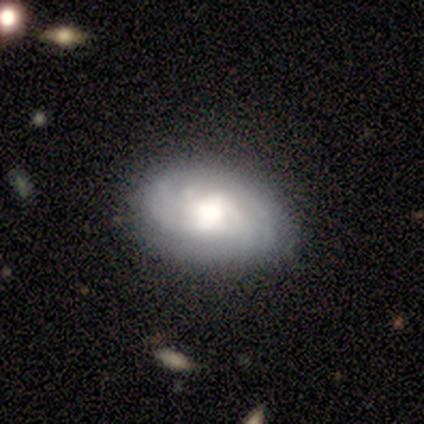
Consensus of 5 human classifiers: A featured or disk galaxy (60%) with no bar (67%), 3 (33%, tied with 4 and can't tell) tight (100%) spiral arms (100%) and a large central bulge (67%). Merging: none (60%).